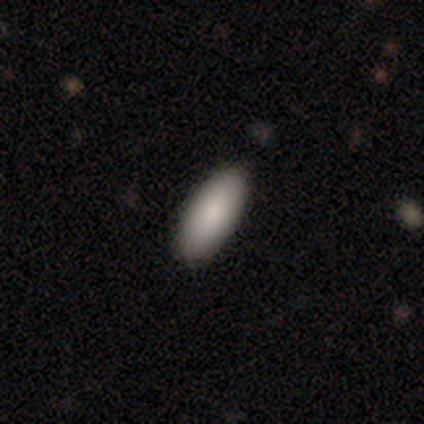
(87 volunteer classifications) This is clearly a smooth galaxy (83%). How rounded: clearly in between (83%). Merging: clearly none (89%).